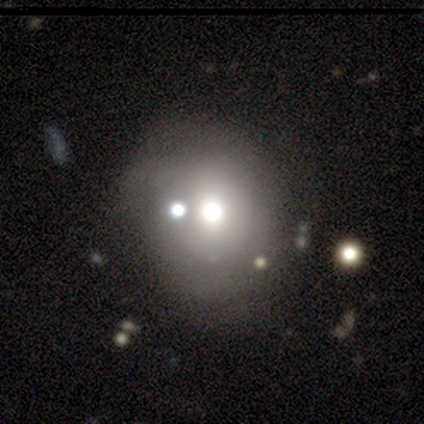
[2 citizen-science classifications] Volunteers were most divided on "smooth or featured" (2-way tie): smooth: 50%, star or artifact: 50%, featured or disk: 0%. More confident: how rounded — in between (100%); merging — minor disturbance (100%).